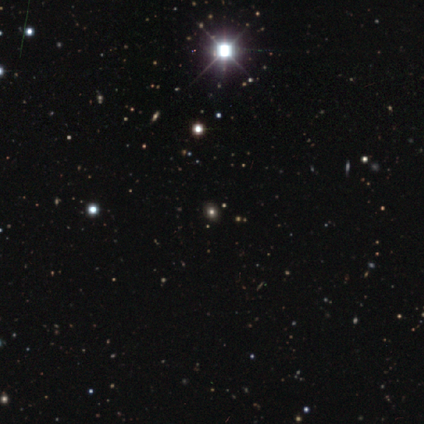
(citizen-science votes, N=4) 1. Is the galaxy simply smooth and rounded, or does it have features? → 75% star or artifact, 25% featured or disk, 0% smooth.